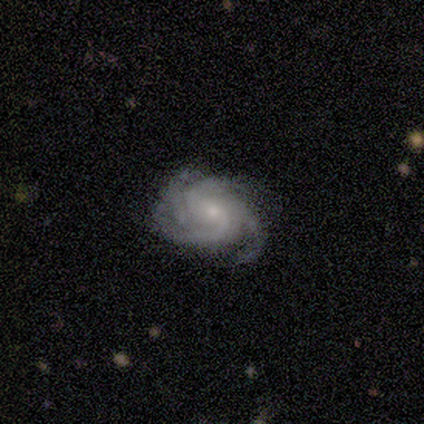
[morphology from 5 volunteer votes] Smooth or featured? featured or disk (100%)
Edge-on disk? no (100%)
Bar? no (60%)
Spiral arms? yes (100%)
Spiral winding? tight (60%)
Spiral arm count? 4 (60%)
Bulge size? small (80%)
Merging? none (80%)